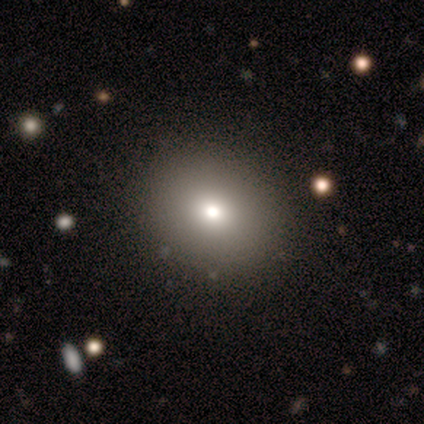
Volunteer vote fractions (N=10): Smooth or featured? smooth (80%)
How rounded? round (62%)
Merging? none (89%)